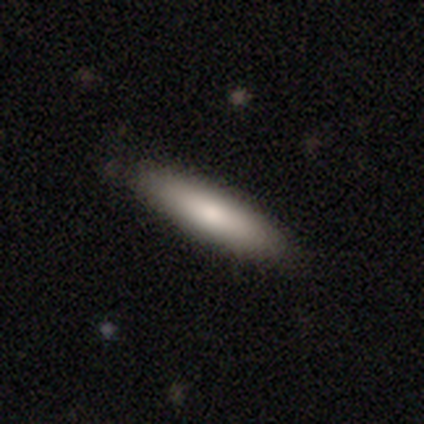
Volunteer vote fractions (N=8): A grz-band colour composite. It shows a smooth galaxy with no disk features (62%) that is cigar-shaped (60%). Merging: none (67%).